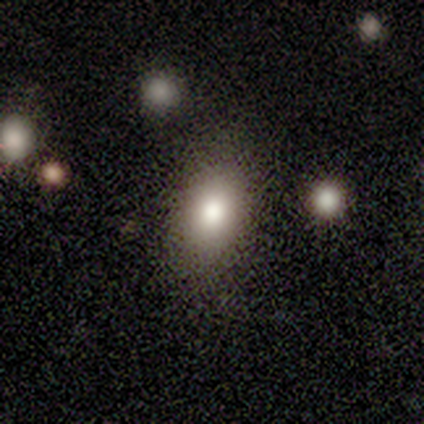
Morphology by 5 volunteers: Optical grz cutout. It shows a smooth galaxy with no disk features (100%) that is in between round and cigar-shaped (80%). Merging: none (80%).